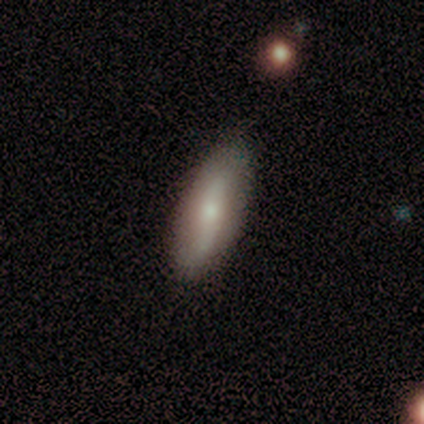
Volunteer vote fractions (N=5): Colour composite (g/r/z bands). It shows a featured or disk galaxy (80%) viewed edge-on (50%, tied with no) with a rounded central bulge (100%). Merging: none (100%).